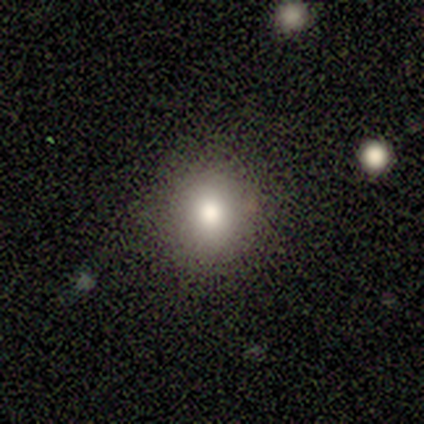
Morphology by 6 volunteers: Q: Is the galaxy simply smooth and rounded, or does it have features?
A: smooth — 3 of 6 (50%).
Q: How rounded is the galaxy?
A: round — 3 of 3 (100%).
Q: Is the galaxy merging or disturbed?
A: none — 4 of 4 (100%).